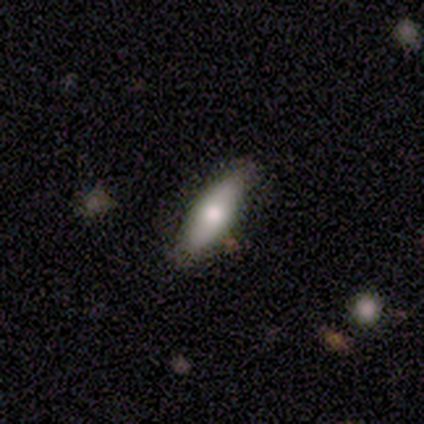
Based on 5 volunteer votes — Smooth or featured? 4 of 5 (80%) said smooth. How rounded? 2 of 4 (50%, tied with cigar-shaped) said in between. Merging? 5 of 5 (100%) said none.